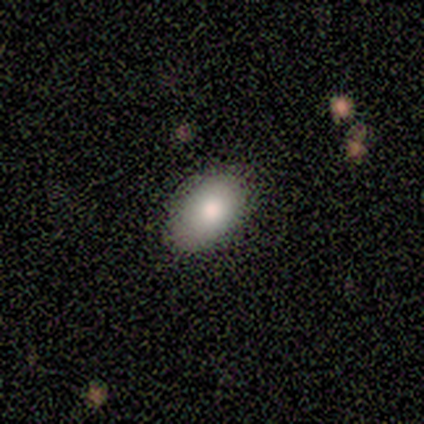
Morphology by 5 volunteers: A smooth galaxy with no disk features (80%) that is in between round and cigar-shaped (100%). Merging: none (75%).